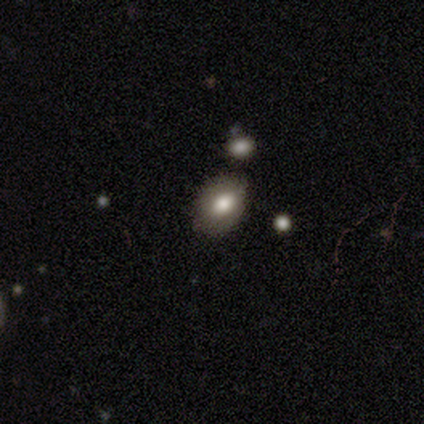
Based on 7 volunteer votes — A smooth galaxy with no disk features (100%) that is in between round and cigar-shaped (100%). Merging: none (86%).